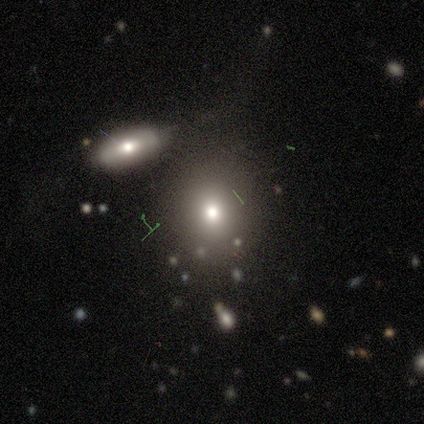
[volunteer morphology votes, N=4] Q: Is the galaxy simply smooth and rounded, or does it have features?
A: smooth — 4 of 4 (100%).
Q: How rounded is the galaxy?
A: round — 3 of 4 (75%).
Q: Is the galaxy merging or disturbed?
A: none — 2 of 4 (50%).